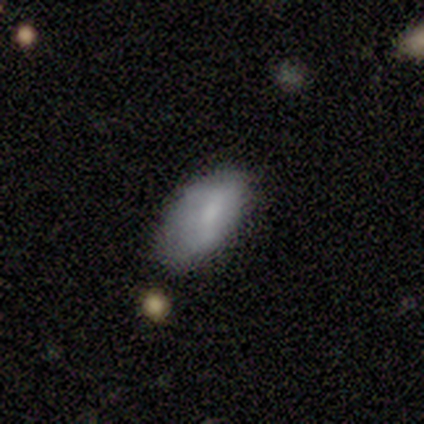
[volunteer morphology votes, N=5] Q: Smooth or featured?
A: smooth (80%); runner-up: featured or disk (20%)
Q: How rounded?
A: in between (100%)
Q: Merging?
A: none (60%); runner-up: minor disturbance (20%)